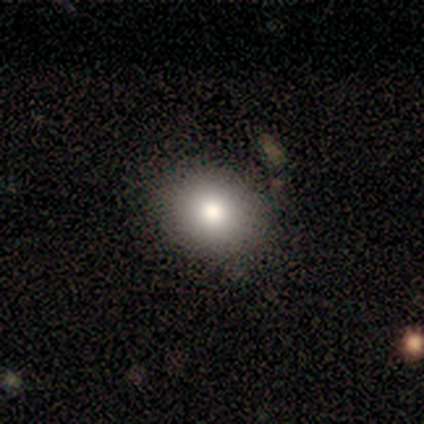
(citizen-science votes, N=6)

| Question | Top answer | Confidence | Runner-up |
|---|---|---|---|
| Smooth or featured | smooth | 83% | featured or disk (17%) |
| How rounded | in between | 60% | round (40%) |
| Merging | none | 83% | minor disturbance (17%) |